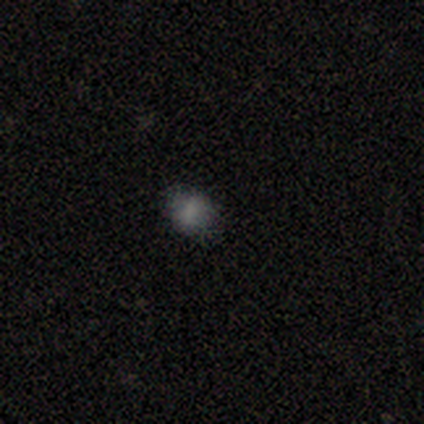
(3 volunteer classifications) This appears to be a smooth galaxy with no disk features (67%) that is in between round and cigar-shaped (100%). Merging: major disturbance (100%).